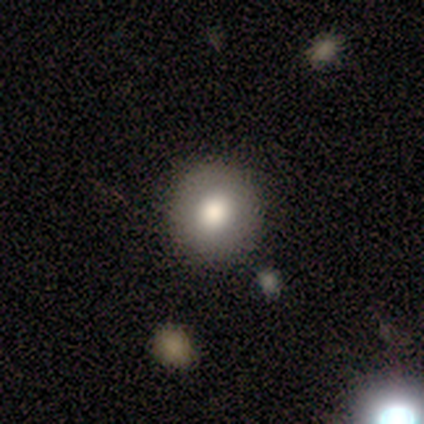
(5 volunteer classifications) This is clearly a smooth galaxy (80%). How rounded: likely round (75%). Merging: clearly none (80%).